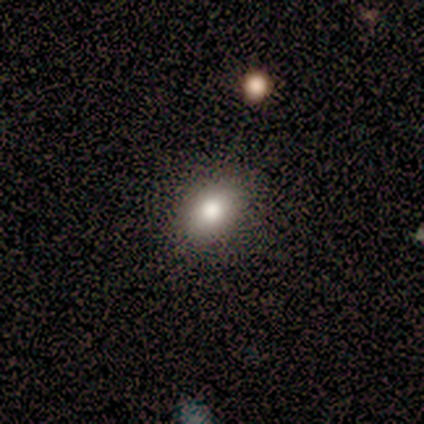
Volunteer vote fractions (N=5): Morphology: type=smooth (80%); roundness=in between (75%); merging=none (80%).